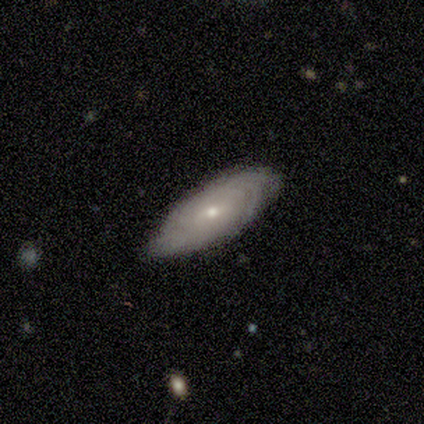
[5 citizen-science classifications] Smooth or featured? 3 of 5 (60%) said featured or disk. Edge-on disk? 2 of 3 (67%) said no. Bar? 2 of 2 (100%) said no. Spiral arms? 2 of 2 (100%) said yes. Spiral winding? 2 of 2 (100%) said tight. Spiral arm count? 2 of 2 (100%) said can't tell. Bulge size? 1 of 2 (50%, tied with small) said moderate. Merging? 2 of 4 (50%, tied with minor disturbance) said none.